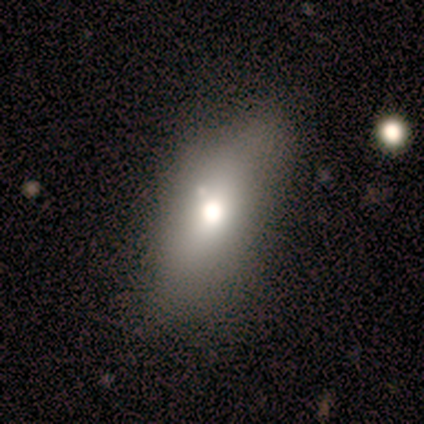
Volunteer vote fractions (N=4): smooth_or_featured: smooth (p=0.50) [alt: featured or disk p=0.25]
how_rounded: in between (p=1.00)
merging: none (p=1.00)